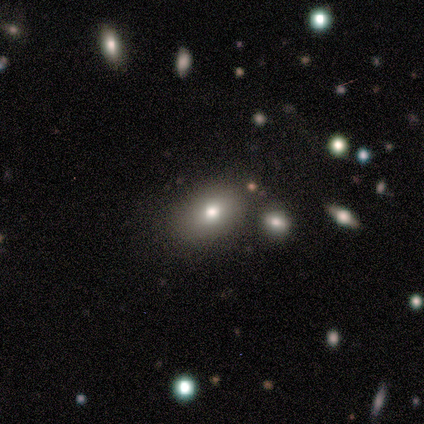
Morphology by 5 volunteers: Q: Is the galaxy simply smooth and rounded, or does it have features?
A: smooth — 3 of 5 (60%).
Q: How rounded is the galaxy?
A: in between — 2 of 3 (67%).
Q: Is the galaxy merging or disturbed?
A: none — 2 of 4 (50%, tied with merger).